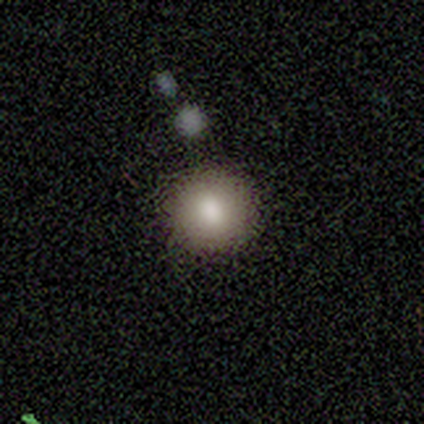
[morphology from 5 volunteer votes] type=smooth (60%); roundness=round (100%); merging=none (75%).